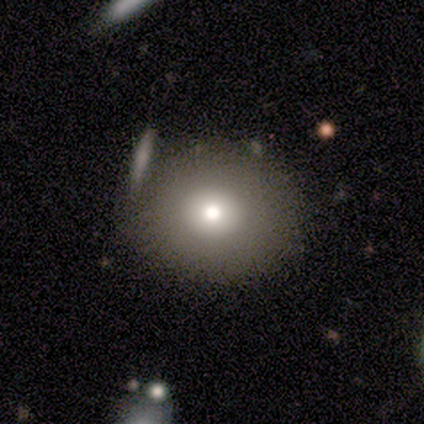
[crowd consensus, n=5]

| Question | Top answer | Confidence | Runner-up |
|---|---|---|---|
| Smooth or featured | smooth | 80% | featured or disk (20%) |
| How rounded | round | 75% | in between (25%) |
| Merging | none | 100% | — |